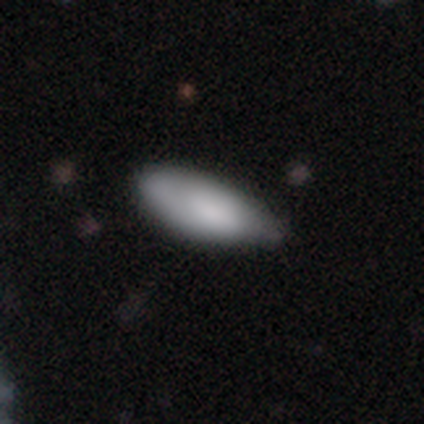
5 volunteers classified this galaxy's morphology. Smooth or featured?
  - smooth: 100% *
  - featured or disk: 0%
  - star or artifact: 0%
How rounded?
  - in between: 80% *
  - cigar-shaped: 20%
  - round: 0%
Merging?
  - minor disturbance: 60% *
  - none: 20%
  - major disturbance: 20%
  - merger: 0%